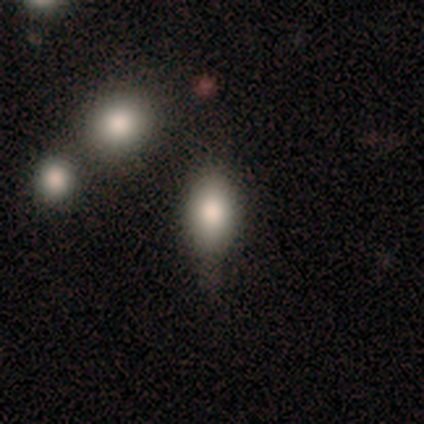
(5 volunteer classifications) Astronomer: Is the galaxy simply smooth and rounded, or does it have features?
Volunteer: featured or disk — 60%.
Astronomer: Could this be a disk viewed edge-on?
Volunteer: no — 67%.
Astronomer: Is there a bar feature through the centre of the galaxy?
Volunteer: weak — 50%, tied with no at 50%.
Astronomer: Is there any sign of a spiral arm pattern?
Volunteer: no — 100%.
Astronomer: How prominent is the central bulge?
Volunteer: moderate — 50%, tied with none at 50%.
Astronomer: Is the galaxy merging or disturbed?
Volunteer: none — 50%.